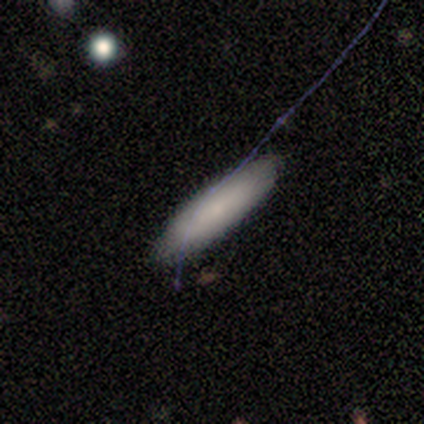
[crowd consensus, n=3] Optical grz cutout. It shows a smooth galaxy with no disk features (100%) that is in between round and cigar-shaped (67%). Merging: none (100%).